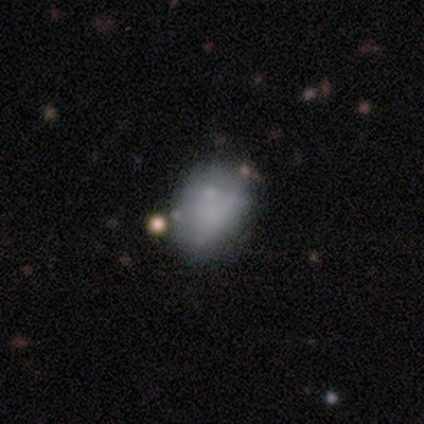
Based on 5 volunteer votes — Smooth or featured? 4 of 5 (80%) said smooth. How rounded? 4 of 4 (100%) said in between. Merging? 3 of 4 (75%) said none.